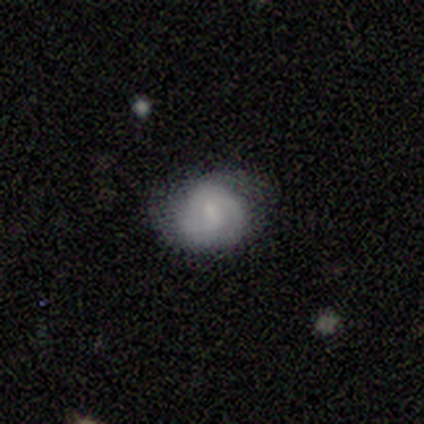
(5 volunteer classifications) Overall: smooth (60%; featured or disk 40%). How rounded: round (67%; in between 33%). Merging: none (60%; minor disturbance 40%).